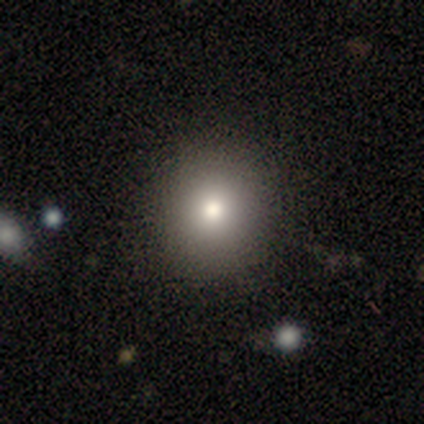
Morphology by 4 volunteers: Smooth or featured: smooth — 100%
How rounded: round — 75% (in between — 25%)
Merging: none — 75% (minor disturbance — 25%)